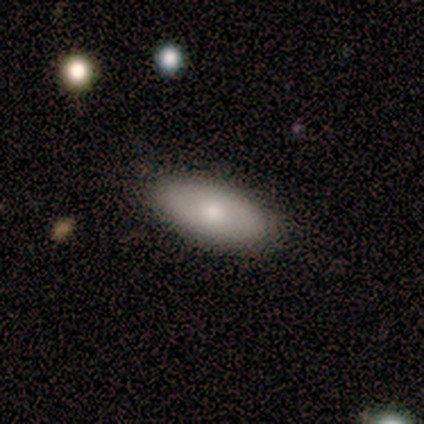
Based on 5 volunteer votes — Smooth or featured? 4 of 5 (80%) said smooth. How rounded? 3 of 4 (75%) said in between. Merging? 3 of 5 (60%) said minor disturbance.